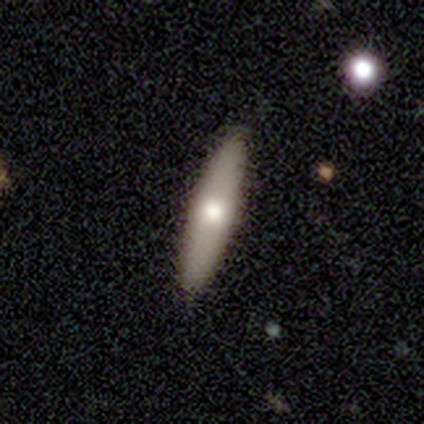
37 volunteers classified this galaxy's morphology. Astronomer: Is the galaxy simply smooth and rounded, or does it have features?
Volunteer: smooth — 59% (runner-up: featured or disk, 38%).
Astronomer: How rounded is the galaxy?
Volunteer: cigar-shaped — 82%.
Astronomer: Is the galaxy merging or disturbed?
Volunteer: none — 81%.